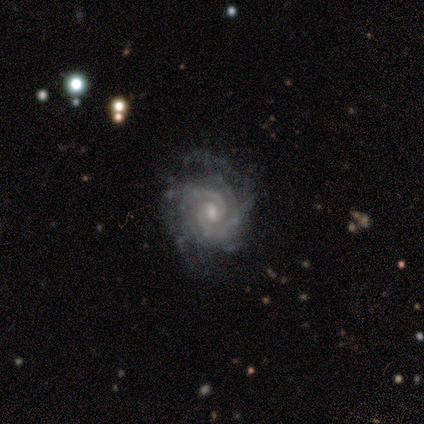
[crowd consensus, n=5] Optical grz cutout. It shows a featured or disk galaxy (80%) with a weak bar (75%), 2 (100%) tight (75%) spiral arms (100%) and a small central bulge (75%). Merging: none (80%).